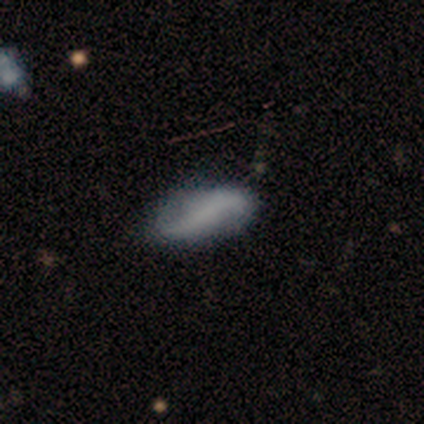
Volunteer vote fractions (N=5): A featured or disk galaxy (80%) with no bar (75%), 2 (100%) loose (50%) spiral arms (100%) and no central bulge (75%). Merging: none (100%).